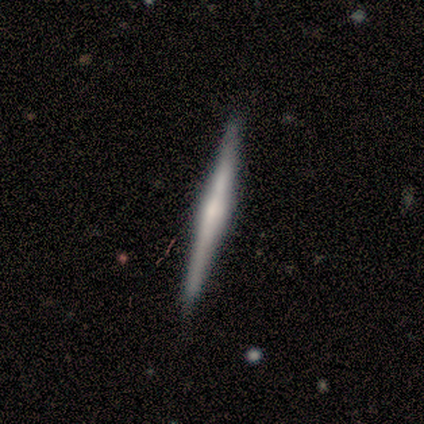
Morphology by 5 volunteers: A smooth galaxy with no disk features (40%, tied with featured or disk) that is cigar-shaped (100%). Merging: none (75%).